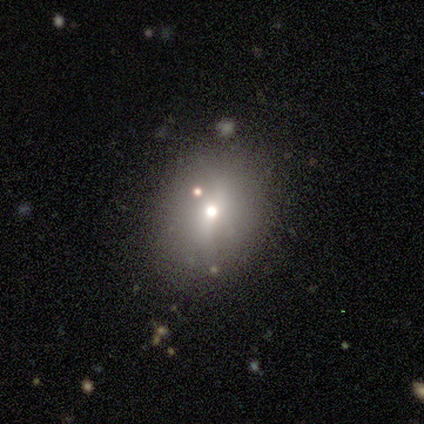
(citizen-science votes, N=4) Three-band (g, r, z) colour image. It shows a smooth galaxy with no disk features (50%) that is round (100%). Merging: none (100%).